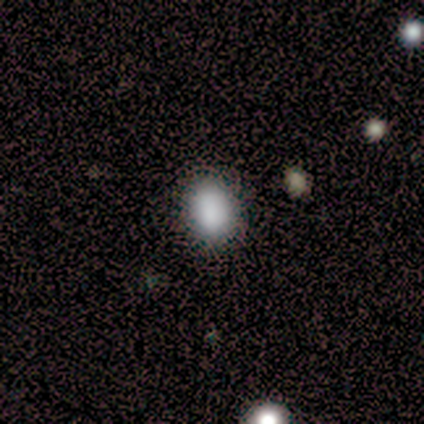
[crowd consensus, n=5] This is clearly a smooth galaxy (100%). How rounded: likely in between (60%). Merging: clearly none (100%).